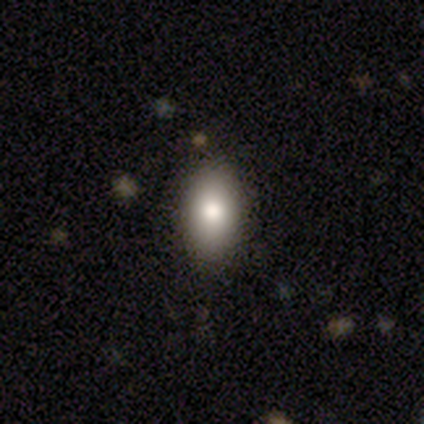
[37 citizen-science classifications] This appears to be a smooth galaxy with no disk features (84%) that is in between round and cigar-shaped (90%). Merging: none (84%).